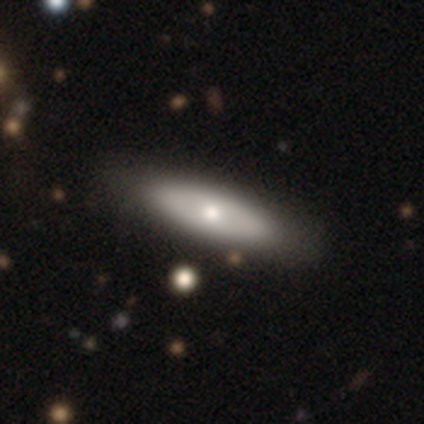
smooth 50%, featured or disk 45%, star or artifact 5%. Down the decision tree: how rounded — cigar-shaped (50%); merging — none (63%).